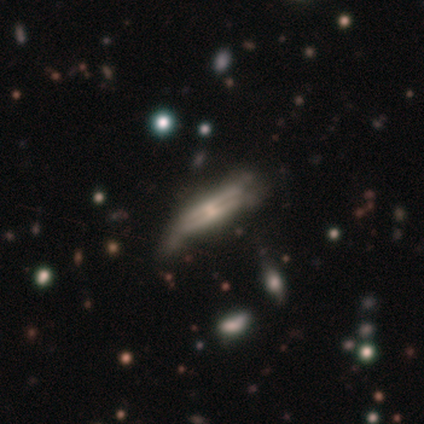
Overall: featured or disk (100%). Edge-on disk: yes (60%; no 40%). Edge-on bulge: rounded (100%). Merging: none (80%).